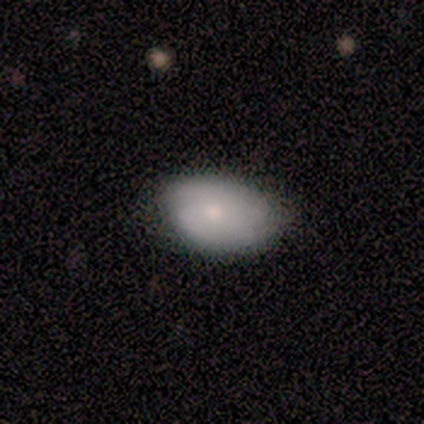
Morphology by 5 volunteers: Smooth or featured? 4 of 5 (80%) said smooth. How rounded? 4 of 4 (100%) said in between. Merging? 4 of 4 (100%) said none.